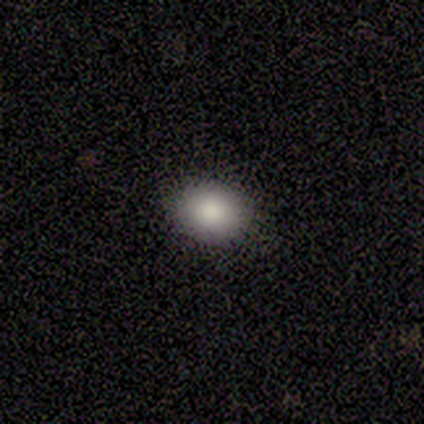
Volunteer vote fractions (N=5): smooth_or_featured: smooth (p=1.00)
how_rounded: round (p=0.60) [alt: in between p=0.40]
merging: none (p=1.00)